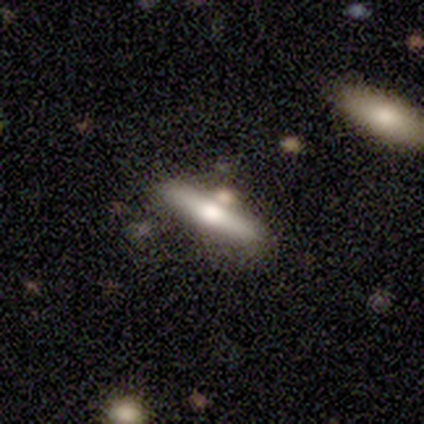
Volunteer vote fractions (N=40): Overall: featured or disk (57%; smooth 40%). Edge-on disk: yes (100%). Edge-on bulge: rounded (87%). Merging: none (72%).